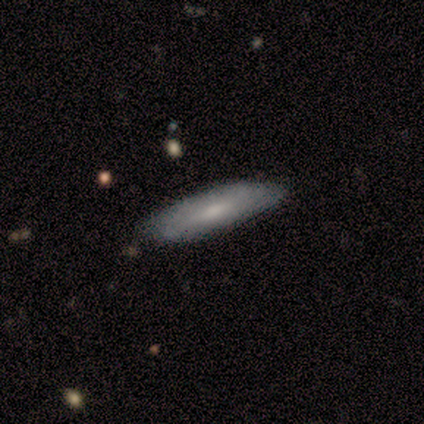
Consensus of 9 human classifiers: A smooth galaxy with no disk features (78%) that is in between round and cigar-shaped (57%).

Vote fractions:
- Smooth or featured? smooth: 78% / featured or disk: 11% / star or artifact: 11%
- How rounded? in between: 57% / cigar-shaped: 43% / round: 0%
- Merging? none: 75% / minor disturbance: 25% / major disturbance: 0% / merger: 0%